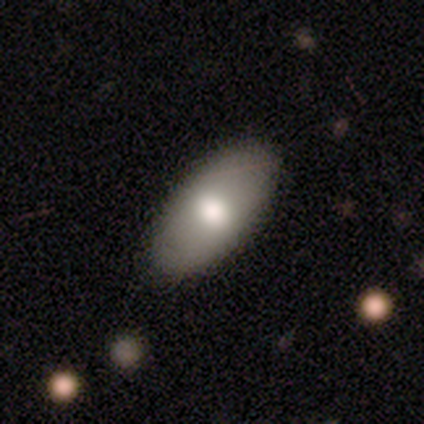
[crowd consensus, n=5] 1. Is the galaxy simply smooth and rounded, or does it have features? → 100% smooth, 0% featured or disk, 0% star or artifact.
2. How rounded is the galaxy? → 100% in between, 0% round, 0% cigar-shaped.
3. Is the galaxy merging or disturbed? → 100% none, 0% minor disturbance, 0% major disturbance, 0% merger.